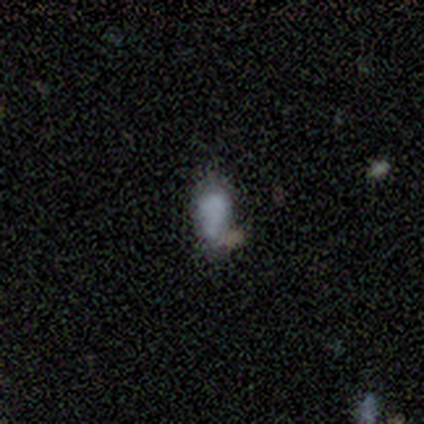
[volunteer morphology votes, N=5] Overall: smooth (40%, tied with featured or disk). How rounded: in between (100%). Merging: merger (50%; none 25%).